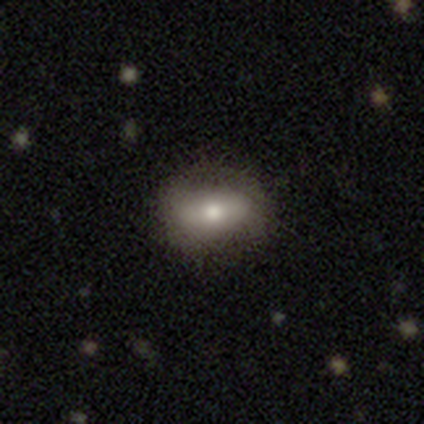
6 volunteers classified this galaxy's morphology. Overall: smooth (67%; featured or disk 33%). How rounded: in between (100%). Merging: none (100%).